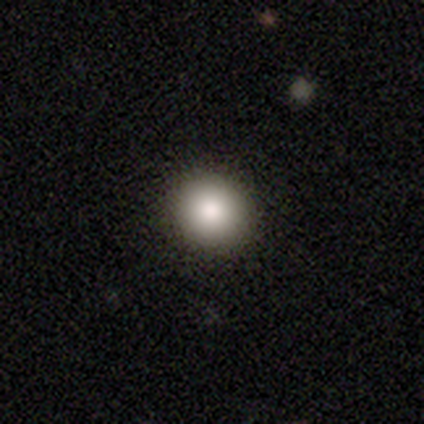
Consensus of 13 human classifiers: Q: Smooth or featured?
A: smooth (100%)
Q: How rounded?
A: round (69%); runner-up: in between (31%)
Q: Merging?
A: none (85%); runner-up: minor disturbance (15%)